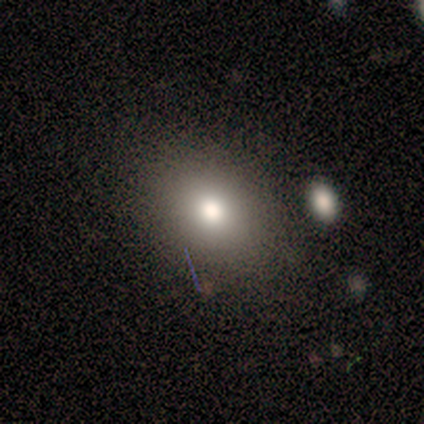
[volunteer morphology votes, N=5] smooth 100%, featured or disk 0%, star or artifact 0%. Down the decision tree: how rounded — in between (60%); merging — none (100%).